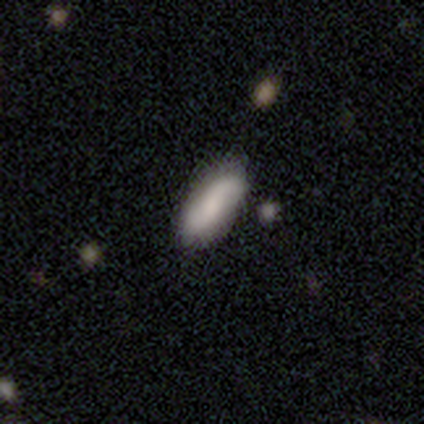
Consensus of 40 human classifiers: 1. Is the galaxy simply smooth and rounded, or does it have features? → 65% smooth, 32% featured or disk, 2% star or artifact.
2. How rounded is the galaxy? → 77% in between, 23% cigar-shaped, 0% round.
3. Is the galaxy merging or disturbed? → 56% none, 10% minor disturbance, 3% merger, 0% major disturbance.